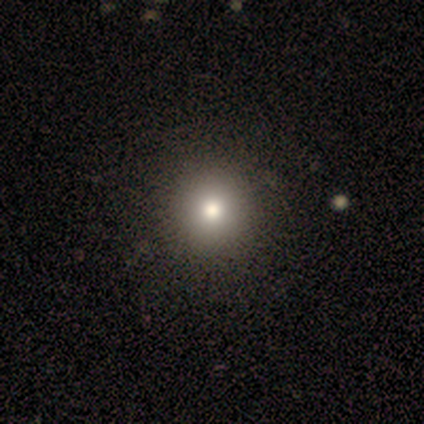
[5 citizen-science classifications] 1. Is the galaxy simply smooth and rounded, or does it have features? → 80% smooth, 20% featured or disk, 0% star or artifact.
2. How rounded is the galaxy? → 100% round, 0% in between, 0% cigar-shaped.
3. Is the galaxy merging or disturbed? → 80% none, 20% major disturbance, 0% minor disturbance, 0% merger.